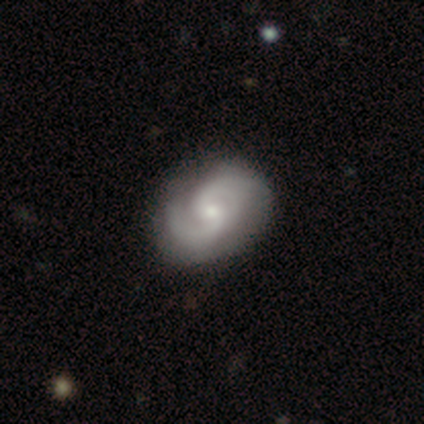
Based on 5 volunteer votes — Morphology: type=featured or disk (100%); edge-on=no (100%); bar=no (60%); spiral arms=yes (100%); winding=medium (60%); arm count=2 (100%); bulge=small (60%); merging=none (40%).